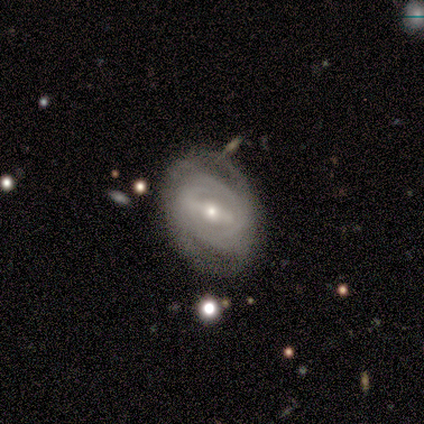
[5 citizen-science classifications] Overall: featured or disk (80%). Edge-on disk: no (100%). Bar: weak (50%; strong 25%). Spiral arms: yes (100%). Spiral arm count: 2 (75%). Spiral winding: tight (75%). Bulge size: small (75%). Merging: none (60%; minor disturbance 20%).